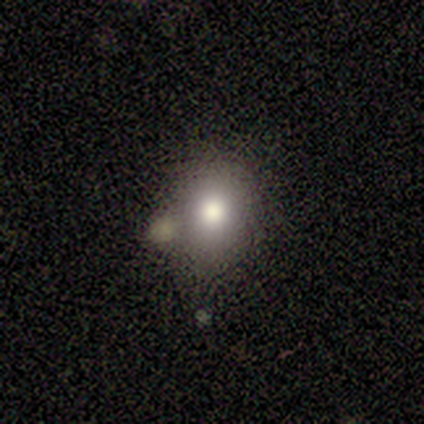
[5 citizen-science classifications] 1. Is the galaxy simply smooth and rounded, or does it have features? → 60% smooth, 20% featured or disk, 20% star or artifact.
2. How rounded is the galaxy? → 67% round, 33% in between, 0% cigar-shaped.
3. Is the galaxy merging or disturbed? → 100% none, 0% minor disturbance, 0% major disturbance, 0% merger.